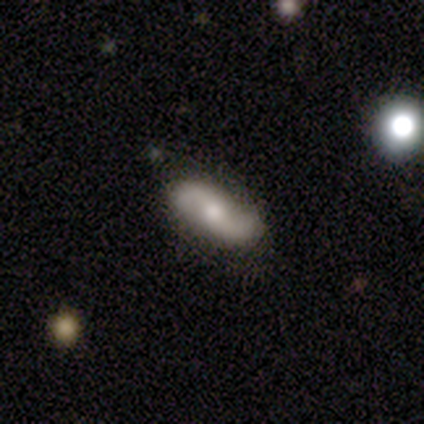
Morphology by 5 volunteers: Overall: featured or disk (100%). Edge-on disk: no (100%). Bar: no (60%; weak 40%). Spiral arms: yes (100%). Spiral arm count: 2 (100%). Spiral winding: loose (80%). Bulge size: moderate (80%). Merging: none (100%).